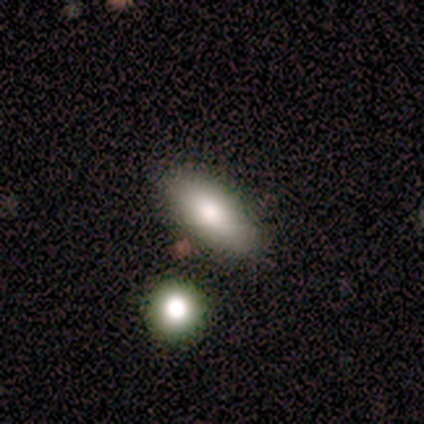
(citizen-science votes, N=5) Smooth or featured: smooth — 60% (featured or disk — 40%)
How rounded: in between — 100%
Merging: none — 40% (tied with minor disturbance — 40%)